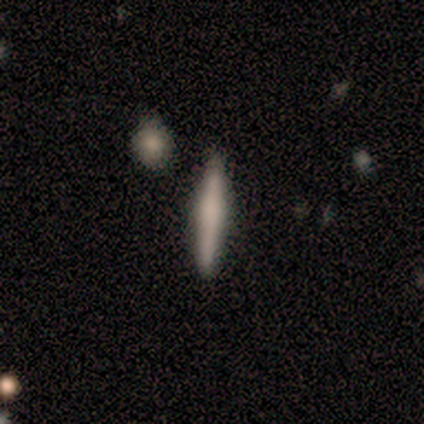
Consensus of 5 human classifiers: Smooth or featured? featured or disk (80%)
Edge-on disk? yes (100%)
Edge-on bulge? none (50%)
Merging? none (100%)